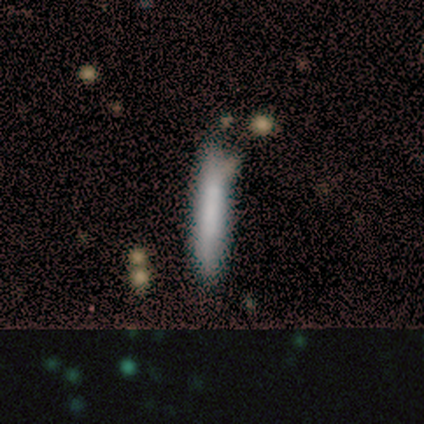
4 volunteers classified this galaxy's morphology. Volunteers were most divided on "merging": none: 50%, minor disturbance: 25%, merger: 25%, major disturbance: 0%. More confident: smooth or featured — smooth (100%); how rounded — cigar-shaped (100%).